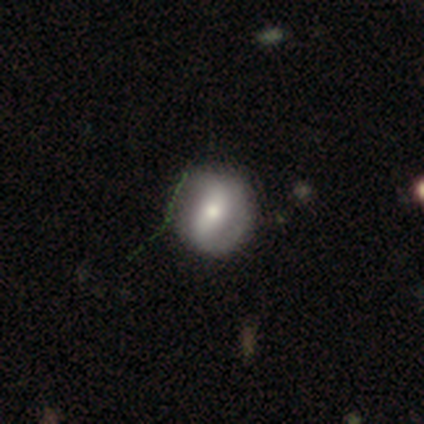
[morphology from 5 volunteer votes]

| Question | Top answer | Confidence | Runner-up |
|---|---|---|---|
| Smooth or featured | smooth | 40% | tied: featured or disk (40%) |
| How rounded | round | 100% | — |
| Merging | none | 50% | minor disturbance (25%) |